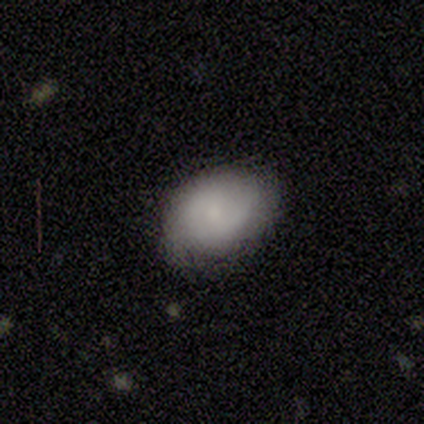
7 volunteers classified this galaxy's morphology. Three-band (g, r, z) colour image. It shows a smooth galaxy with no disk features (100%) that is in between round and cigar-shaped (71%). Merging: none (71%).